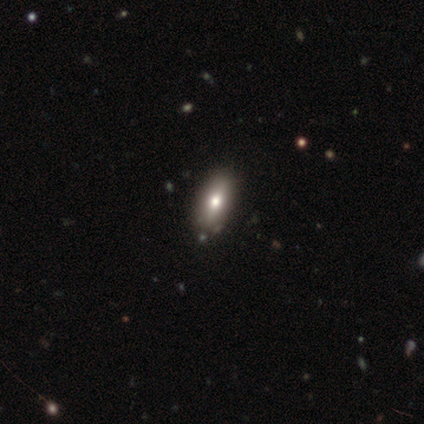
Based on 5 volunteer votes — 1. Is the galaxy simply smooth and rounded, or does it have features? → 60% smooth, 20% featured or disk, 20% star or artifact.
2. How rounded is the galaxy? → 67% in between, 33% cigar-shaped, 0% round.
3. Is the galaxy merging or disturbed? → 75% none, 25% minor disturbance, 0% major disturbance, 0% merger.